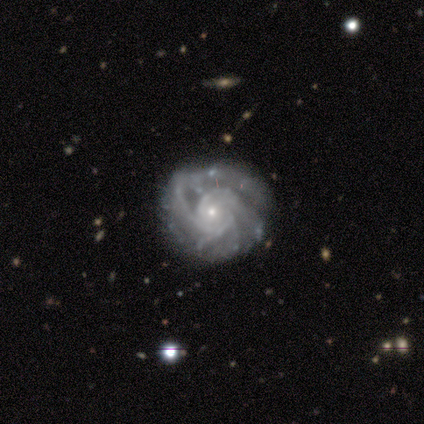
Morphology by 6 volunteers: A featured or disk galaxy (100%) with no bar (67%), 2 (60%) medium (60%) spiral arms (83%) and a small central bulge (100%).

Vote fractions:
- Smooth or featured? featured or disk: 100% / smooth: 0% / star or artifact: 0%
- Edge-on disk? no: 100% / yes: 0%
- Bar? no: 67% / strong: 33% / weak: 0%
- Spiral arms? yes: 83% / no: 17%
- Spiral winding? medium: 60% / tight: 40% / loose: 0%
- Spiral arm count? 2: 60% / more than 4: 20% / can't tell: 20% / 1: 0% / 3: 0% / 4: 0%
- Bulge size? small: 100% / dominant: 0% / large: 0% / moderate: 0% / none: 0%
- Merging? none: 83% / minor disturbance: 17% / major disturbance: 0% / merger: 0%